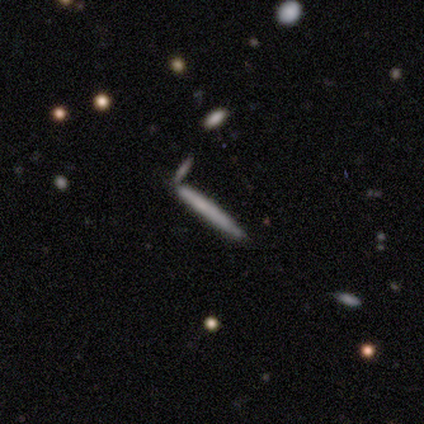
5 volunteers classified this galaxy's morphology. This is clearly a smooth galaxy (100%). How rounded: clearly cigar-shaped (100%). Merging: clearly none (80%).